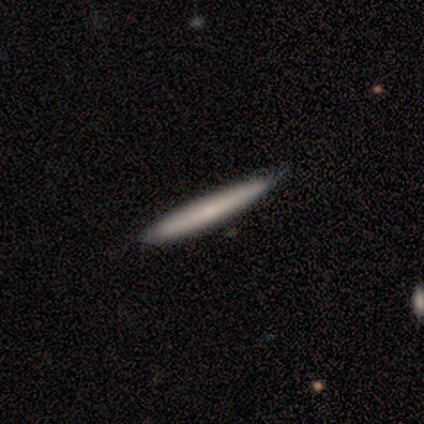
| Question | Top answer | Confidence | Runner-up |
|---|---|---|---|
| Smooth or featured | smooth | 50% | tied: featured or disk (50%) |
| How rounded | cigar-shaped | 100% | — |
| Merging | none | 100% | — |